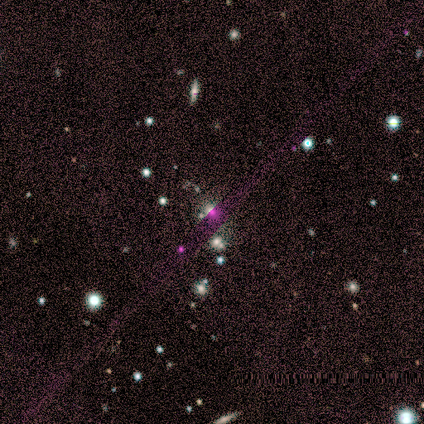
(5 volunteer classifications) This appears to be a star or artifact, not a galaxy (60%).